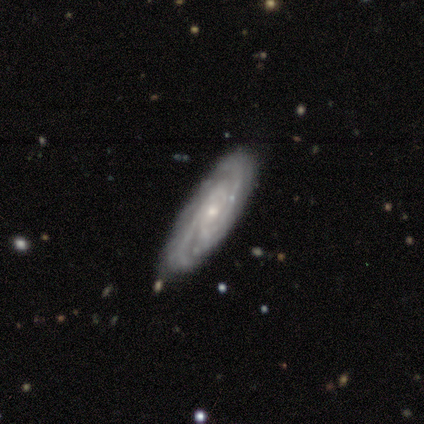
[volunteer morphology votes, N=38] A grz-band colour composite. It shows a featured or disk galaxy (82%) with no bar (86%), 2 (52%) tight (67%) spiral arms (93%) and a small central bulge (76%). Merging: none (76%).